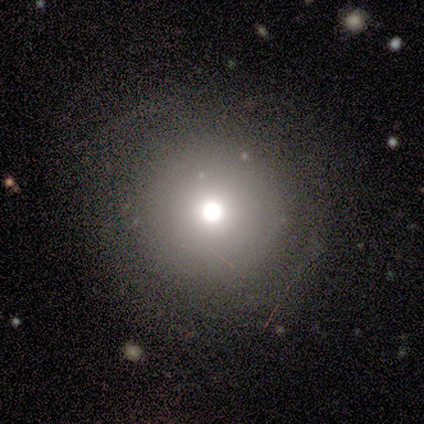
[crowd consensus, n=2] Q: Smooth or featured?
A: smooth (100%)
Q: How rounded?
A: round (100%)
Q: Merging?
A: none (100%)